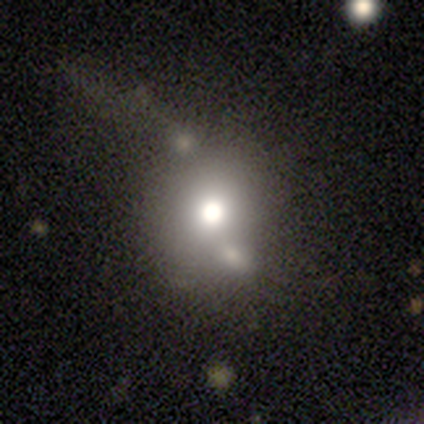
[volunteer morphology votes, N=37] Overall: smooth (68%). How rounded: round (72%). Merging: none (47%; merger 28%).